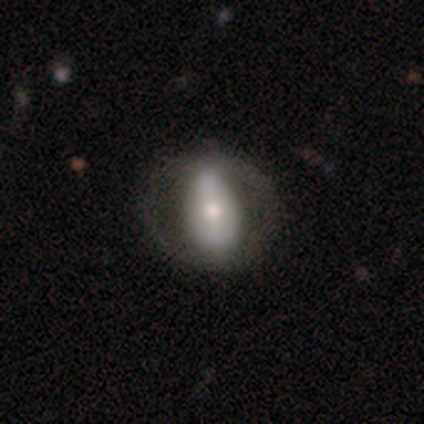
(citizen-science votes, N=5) Overall: featured or disk (60%; smooth 40%). Edge-on disk: no (100%). Bar: no (67%; strong 33%). Spiral arms: no (100%). Bulge size: large (33%, tied with moderate and small). Merging: none (80%).